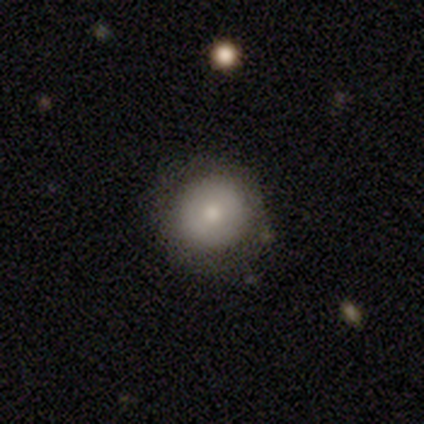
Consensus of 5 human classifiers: Smooth or featured? smooth (100%)
How rounded? round (80%)
Merging? none (60%)